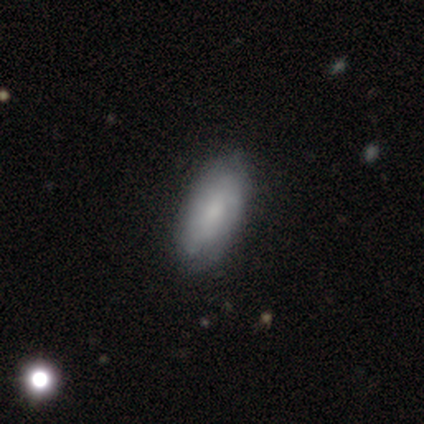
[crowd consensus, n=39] A smooth galaxy with no disk features (64%) that is in between round and cigar-shaped (84%). Merging: none (74%).